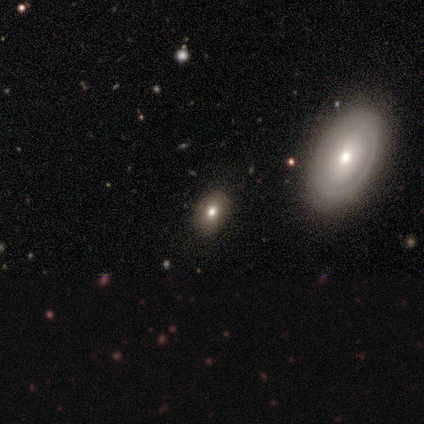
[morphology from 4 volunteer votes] A smooth galaxy with no disk features (50%, tied with featured or disk) that is in between round and cigar-shaped (100%).

Vote fractions:
- Smooth or featured? smooth: 50% (tied) / featured or disk: 50% (tied) / star or artifact: 0%
- How rounded? in between: 100% / round: 0% / cigar-shaped: 0%
- Merging? none: 100% / minor disturbance: 0% / major disturbance: 0% / merger: 0%